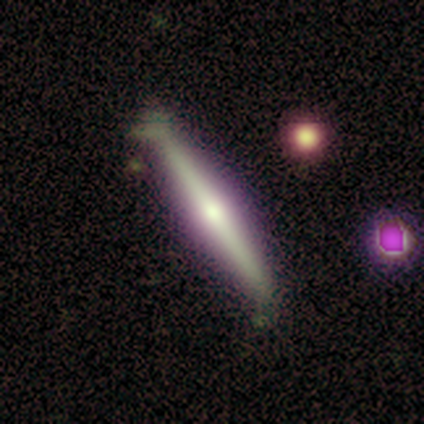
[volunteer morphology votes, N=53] smooth_or_featured: featured or disk (p=0.75) [alt: smooth p=0.17]
disk_edge_on: yes (p=0.97) [alt: no p=0.03]
edge_on_bulge: rounded (p=0.82) [alt: none p=0.13]
merging: none (p=0.57) [alt: minor disturbance p=0.29]